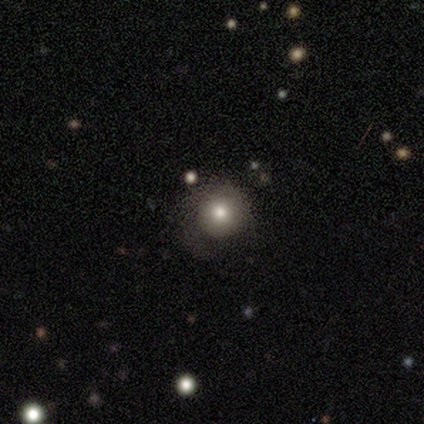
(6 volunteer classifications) Smooth or featured: smooth — 83% (featured or disk — 17%)
How rounded: round — 100%
Merging: none — 50% (major disturbance — 33%)